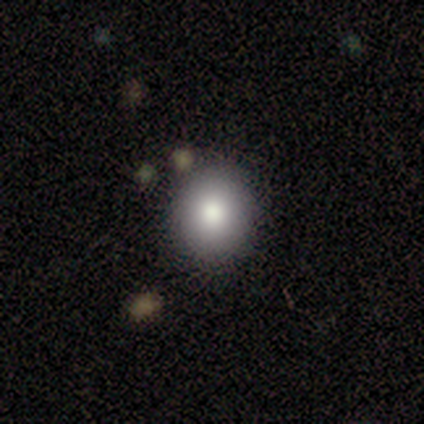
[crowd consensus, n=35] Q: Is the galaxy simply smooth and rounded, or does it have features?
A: smooth — 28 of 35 (80%).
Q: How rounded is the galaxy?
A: round — 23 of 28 (82%).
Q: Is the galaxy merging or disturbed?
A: none — 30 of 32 (94%).